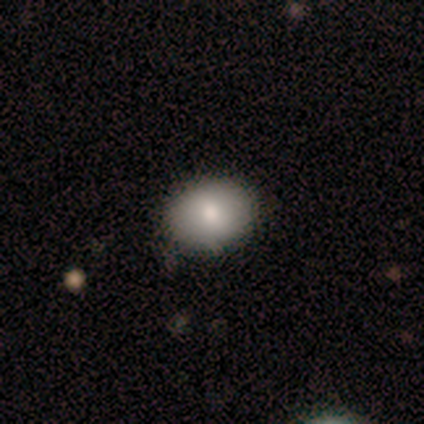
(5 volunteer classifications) A smooth galaxy with no disk features (80%) that is round (50%, tied with in between).

Vote fractions:
- Smooth or featured? smooth: 80% / featured or disk: 20% / star or artifact: 0%
- How rounded? round: 50% (tied) / in between: 50% (tied) / cigar-shaped: 0%
- Merging? none: 100% / minor disturbance: 0% / major disturbance: 0% / merger: 0%